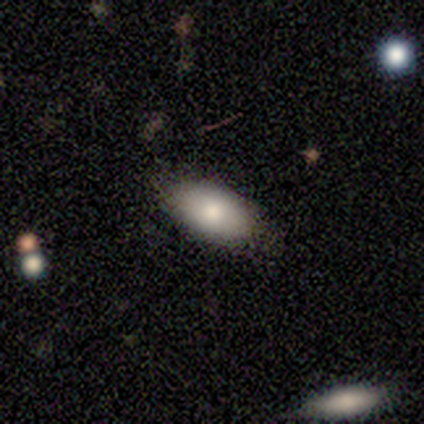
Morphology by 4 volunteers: smooth 100%, featured or disk 0%, star or artifact 0%. Down the decision tree: how rounded — in between (100%); merging — none (50%, tied with minor disturbance).